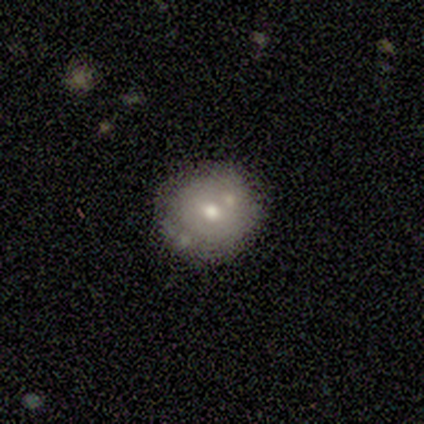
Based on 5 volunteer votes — Smooth or featured?
  - smooth: 80% *
  - featured or disk: 20%
  - star or artifact: 0%
How rounded?
  - round: 75% *
  - in between: 25%
  - cigar-shaped: 0%
Merging?
  - none: 80% *
  - merger: 20%
  - minor disturbance: 0%
  - major disturbance: 0%